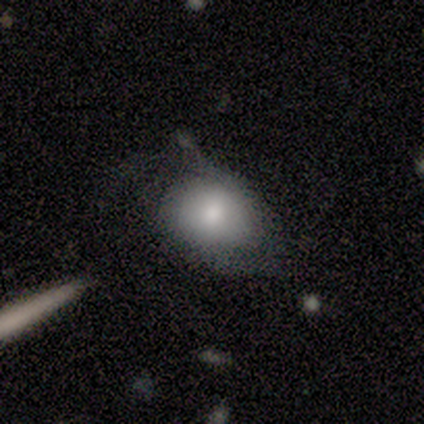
smooth-or-featured: smooth: 80% | featured or disk: 20% | star or artifact: 0%
  how-rounded: round: 50% (tied) | in between: 50% (tied) | cigar-shaped: 0%
  merging: major disturbance: 80% | minor disturbance: 20% | none: 0% | merger: 0%